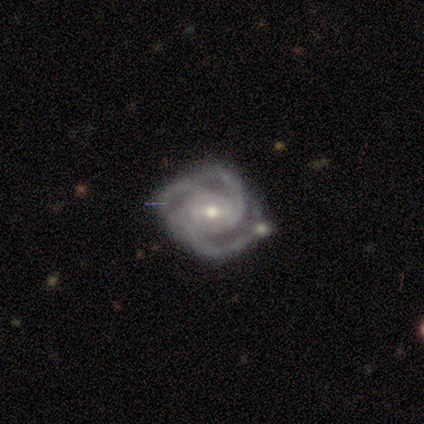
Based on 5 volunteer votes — smooth-or-featured: featured or disk: 80% | star or artifact: 20% | smooth: 0%
  disk-edge-on: no: 100% | yes: 0%
    bar: no: 75% | weak: 25% | strong: 0%
    has-spiral-arms: yes: 100% | no: 0%
      spiral-winding: tight: 75% | medium: 25% | loose: 0%
      spiral-arm-count: 3: 75% | 4: 25% | 1: 0% | 2: 0% | more than 4: 0% | can't tell: 0%
    bulge-size: moderate: 50% (tied) | small: 50% (tied) | dominant: 0% | large: 0% | none: 0%
  merging: none: 50% (tied) | minor disturbance: 50% (tied) | major disturbance: 0% | merger: 0%